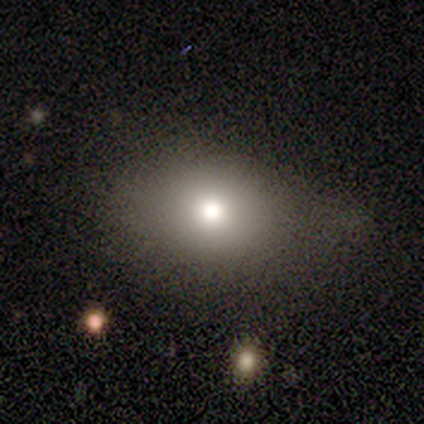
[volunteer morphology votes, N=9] Volunteers were most divided on "merging" (2-way tie): none: 50%, minor disturbance: 50%, major disturbance: 0%, merger: 0%. More confident: how rounded — in between (86%); smooth or featured — smooth (78%).